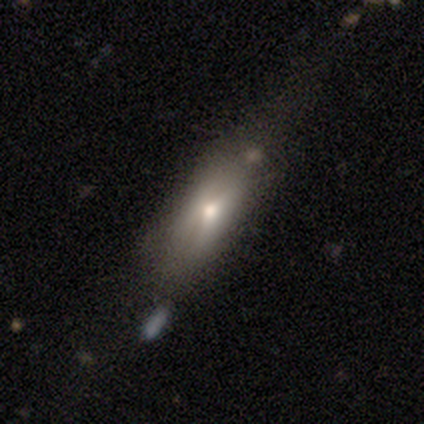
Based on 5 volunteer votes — Smooth or featured? smooth (60%)
How rounded? cigar-shaped (67%)
Merging? none (40%)